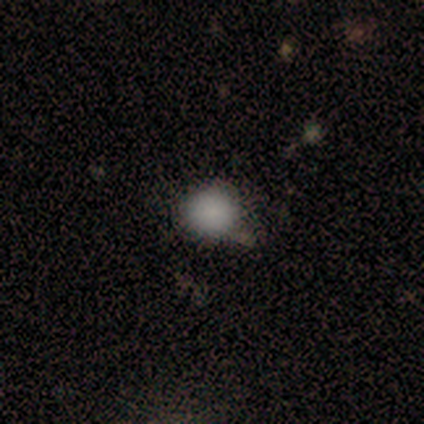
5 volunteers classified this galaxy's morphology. Q: Smooth or featured?
A: smooth (100%)
Q: How rounded?
A: round (100%)
Q: Merging?
A: none (80%); runner-up: major disturbance (20%)